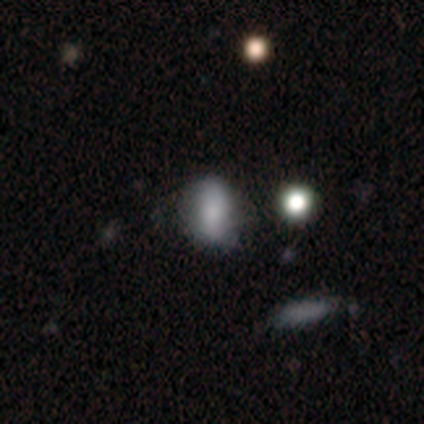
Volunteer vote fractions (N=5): Overall: smooth (60%; featured or disk 20%). How rounded: in between (100%). Merging: none (50%; minor disturbance 25%).